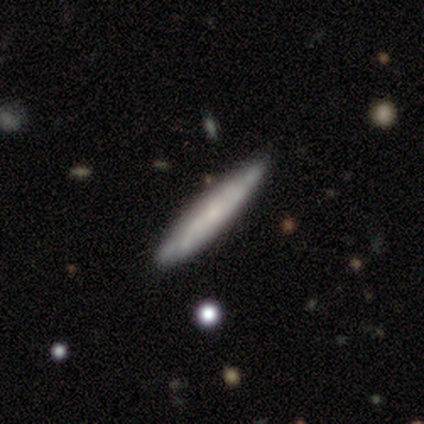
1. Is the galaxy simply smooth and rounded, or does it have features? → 100% featured or disk, 0% smooth, 0% star or artifact.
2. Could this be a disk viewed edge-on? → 50% yes (tied), 50% no (tied).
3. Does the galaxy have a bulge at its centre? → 100% none, 0% boxy, 0% rounded.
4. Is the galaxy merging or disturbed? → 100% none, 0% minor disturbance, 0% major disturbance, 0% merger.